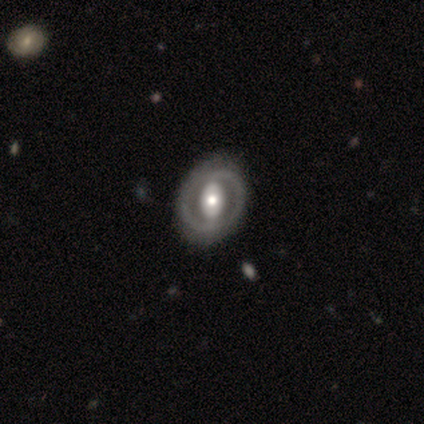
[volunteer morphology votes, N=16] smooth-or-featured: featured or disk: 69% | smooth: 31% | star or artifact: 0%
  disk-edge-on: no: 100% | yes: 0%
    bar: no: 45% | strong: 36% | weak: 18%
    has-spiral-arms: no: 73% | yes: 27%
    bulge-size: moderate: 45% | large: 27% | small: 27% | dominant: 0% | none: 0%
  merging: none: 81% | major disturbance: 12% | minor disturbance: 6% | merger: 0%